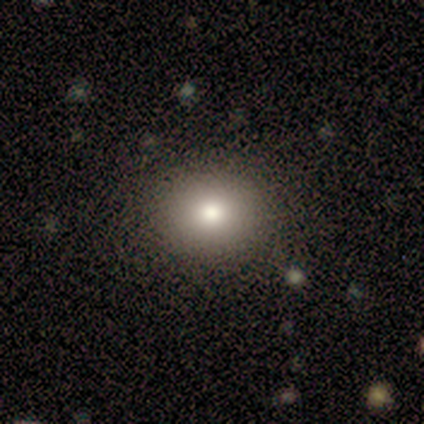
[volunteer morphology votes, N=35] Smooth or featured?
  - smooth: 71% *
  - featured or disk: 17%
  - star or artifact: 11%
How rounded?
  - round: 72% *
  - in between: 28%
  - cigar-shaped: 0%
Merging?
  - none: 94% *
  - minor disturbance: 6%
  - major disturbance: 0%
  - merger: 0%